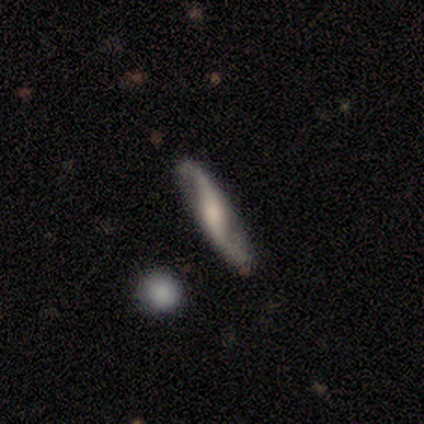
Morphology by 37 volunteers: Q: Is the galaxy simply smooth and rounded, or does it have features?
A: featured or disk — 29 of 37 (78%).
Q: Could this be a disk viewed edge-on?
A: no — 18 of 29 (62%).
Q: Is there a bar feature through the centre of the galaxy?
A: strong — 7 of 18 (39%, tied with no).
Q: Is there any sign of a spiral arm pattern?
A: yes — 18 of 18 (100%).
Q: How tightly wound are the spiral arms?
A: loose — 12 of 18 (67%).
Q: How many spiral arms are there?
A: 2 — 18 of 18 (100%).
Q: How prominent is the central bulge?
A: moderate — 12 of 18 (67%).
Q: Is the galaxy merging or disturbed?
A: none — 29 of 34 (85%).